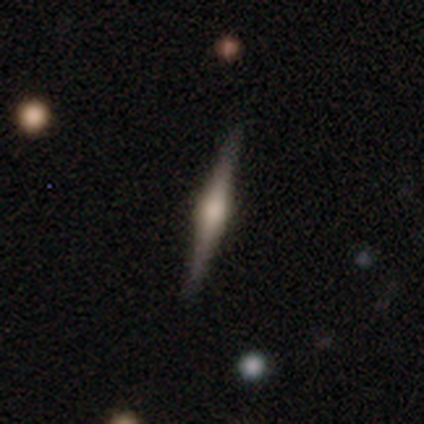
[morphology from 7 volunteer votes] type=featured or disk (71%); edge-on=yes (100%); edge-on bulge=rounded (100%); merging=none (100%).